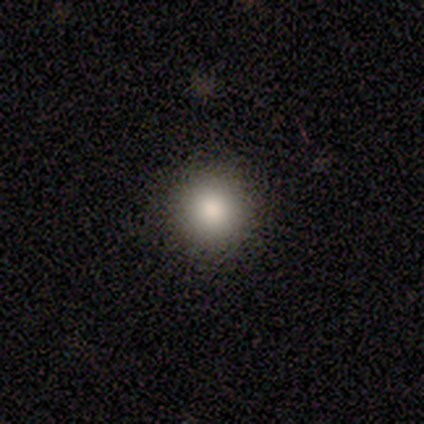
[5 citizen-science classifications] Smooth or featured: smooth — 100%
How rounded: round — 100%
Merging: none — 80% (minor disturbance — 20%)